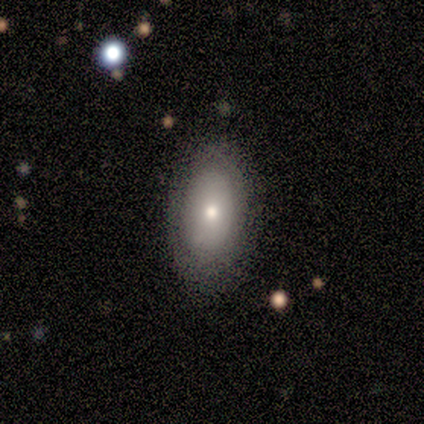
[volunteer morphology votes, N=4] Smooth or featured? 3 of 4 (75%) said smooth. How rounded? 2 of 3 (67%) said round. Merging? 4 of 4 (100%) said none.